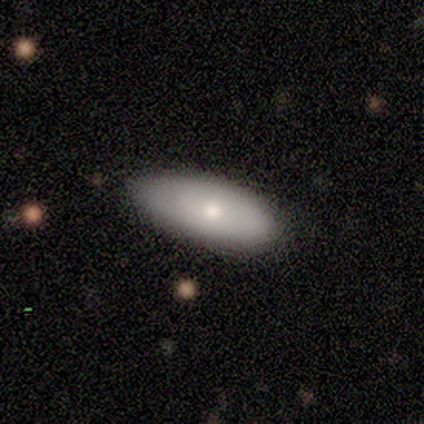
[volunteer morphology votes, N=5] smooth-or-featured: smooth: 100% | featured or disk: 0% | star or artifact: 0%
  how-rounded: in between: 100% | round: 0% | cigar-shaped: 0%
  merging: none: 80% | minor disturbance: 20% | major disturbance: 0% | merger: 0%